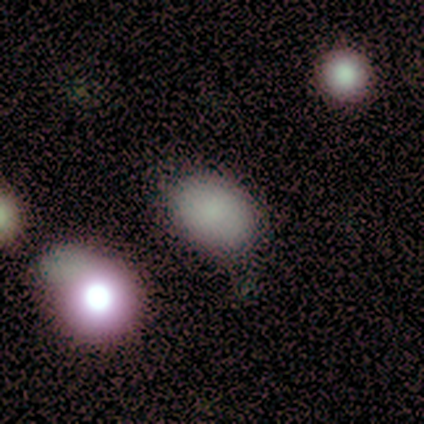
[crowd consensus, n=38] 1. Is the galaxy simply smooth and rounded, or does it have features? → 92% smooth, 5% star or artifact, 3% featured or disk.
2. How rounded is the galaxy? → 89% in between, 11% round, 0% cigar-shaped.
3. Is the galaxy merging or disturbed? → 81% none, 11% minor disturbance, 6% major disturbance, 3% merger.